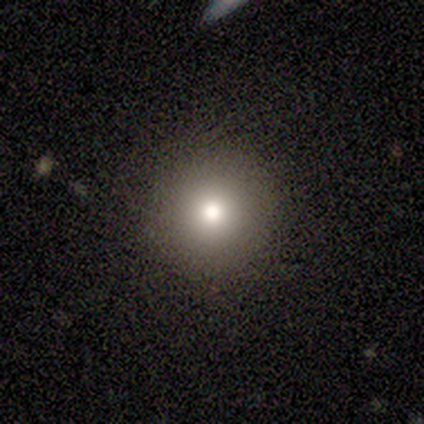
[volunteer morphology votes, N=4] smooth_or_featured: smooth (p=1.00)
how_rounded: round (p=1.00)
merging: none (p=1.00)